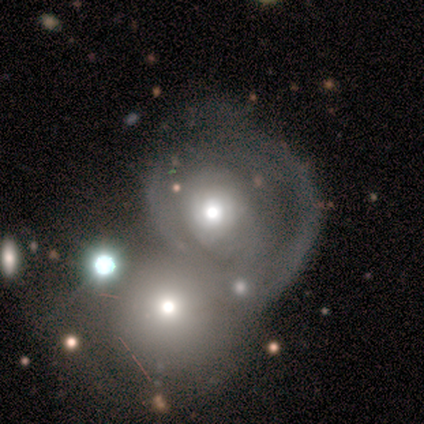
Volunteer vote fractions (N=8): Q: Smooth or featured?
A: smooth (50%); runner-up: featured or disk (25%)
Q: How rounded?
A: round (75%); runner-up: in between (25%)
Q: Merging?
A: merger (83%); runner-up: none (17%)